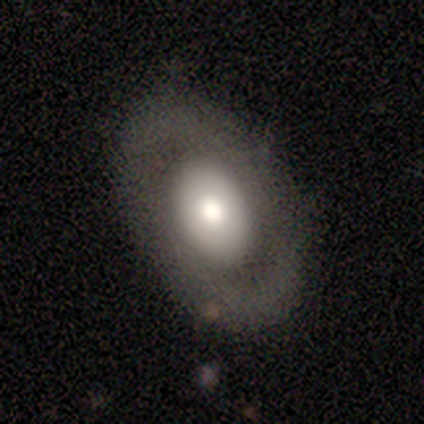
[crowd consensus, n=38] A smooth galaxy with no disk features (55%) that is in between round and cigar-shaped (76%). Merging: none (71%).